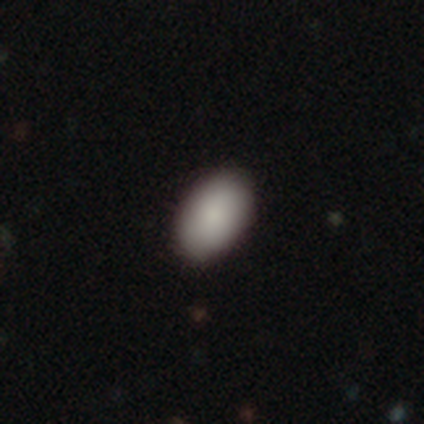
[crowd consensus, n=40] Smooth or featured? smooth (90%)
How rounded? in between (100%)
Merging? none (95%)